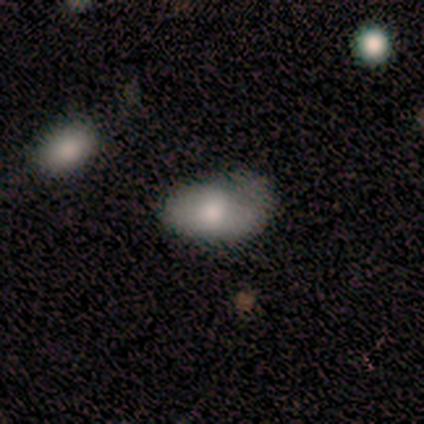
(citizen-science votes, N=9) Smooth or featured?
  - smooth: 89% *
  - featured or disk: 11%
  - star or artifact: 0%
How rounded?
  - in between: 100% *
  - round: 0%
  - cigar-shaped: 0%
Merging?
  - minor disturbance: 56% *
  - none: 33%
  - major disturbance: 11%
  - merger: 0%